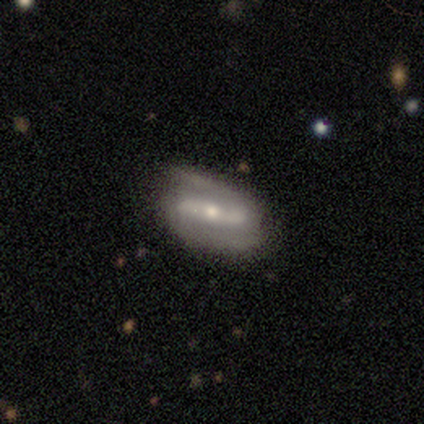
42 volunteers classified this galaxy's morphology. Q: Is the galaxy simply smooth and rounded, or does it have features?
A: featured or disk — 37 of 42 (88%).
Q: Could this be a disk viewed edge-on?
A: no — 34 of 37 (92%).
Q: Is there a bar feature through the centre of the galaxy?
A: strong — 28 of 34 (82%).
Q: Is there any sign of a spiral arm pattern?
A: yes — 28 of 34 (82%).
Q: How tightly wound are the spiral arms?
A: medium — 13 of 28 (46%).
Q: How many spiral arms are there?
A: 2 — 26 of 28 (93%).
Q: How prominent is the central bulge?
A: moderate — 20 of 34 (59%).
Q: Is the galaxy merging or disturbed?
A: none — 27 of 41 (66%).